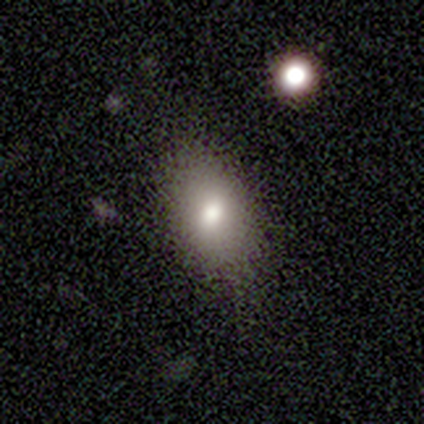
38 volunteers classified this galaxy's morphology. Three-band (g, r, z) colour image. It shows a smooth galaxy with no disk features (87%) that is in between round and cigar-shaped (88%). Merging: none (74%).